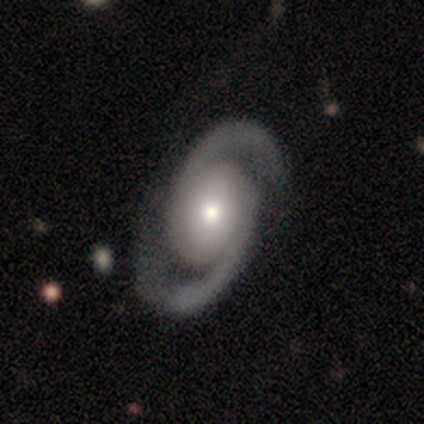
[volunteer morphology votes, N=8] This appears to be a featured or disk galaxy (100%) with no bar (100%), 2 (100%) medium (62%) spiral arms (100%) and a moderate central bulge (62%). Merging: none (75%).